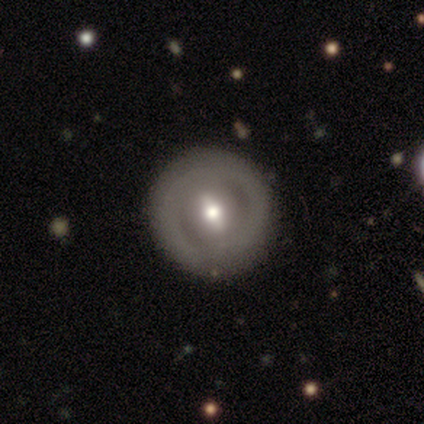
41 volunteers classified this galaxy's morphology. This is likely a featured or disk galaxy (78%). It is clearly not viewed edge-on (94%). Bar: possibly strong (47%). Spiral arm pattern: likely no (73%). Central bulge: likely moderate (63%). Merging: clearly none (85%).